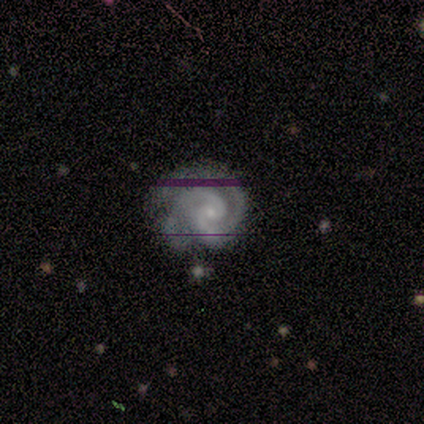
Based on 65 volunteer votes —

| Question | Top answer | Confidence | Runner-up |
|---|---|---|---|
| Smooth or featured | featured or disk | 92% | smooth (5%) |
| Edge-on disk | no | 100% | — |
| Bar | no | 80% | weak (17%) |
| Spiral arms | yes | 98% | no (2%) |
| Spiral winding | tight | 73% | medium (25%) |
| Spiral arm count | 2 | 86% | 3 (8%) |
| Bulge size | small | 82% | none (10%) |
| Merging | none | 68% | minor disturbance (19%) |